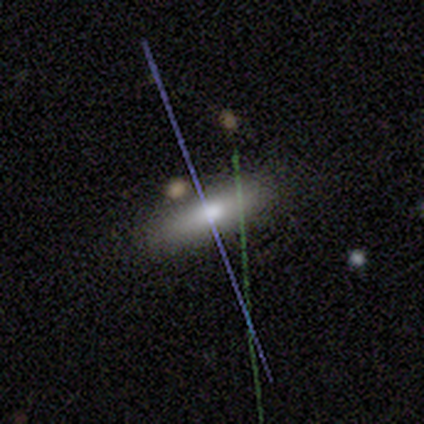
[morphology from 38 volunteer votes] Overall: smooth (55%; star or artifact 24%). How rounded: in between (52%; cigar-shaped 43%). Merging: none (83%).